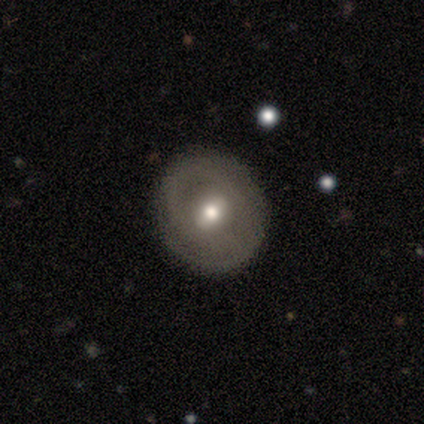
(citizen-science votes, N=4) Morphology: type=smooth (50%); roundness=round (100%); merging=none (100%).